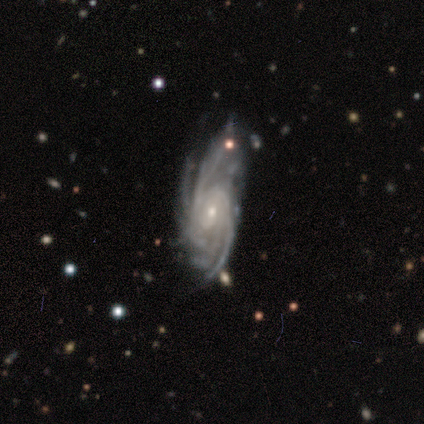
Smooth or featured? 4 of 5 (80%) said featured or disk. Edge-on disk? 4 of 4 (100%) said no. Bar? 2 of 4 (50%, tied with no) said weak. Spiral arms? 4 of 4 (100%) said yes. Spiral winding? 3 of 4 (75%) said medium. Spiral arm count? 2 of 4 (50%) said can't tell. Bulge size? 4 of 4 (100%) said small. Merging? 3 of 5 (60%) said minor disturbance.